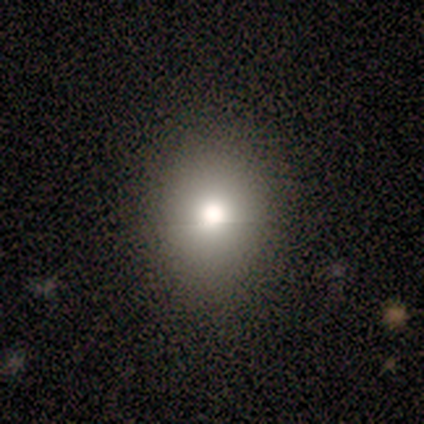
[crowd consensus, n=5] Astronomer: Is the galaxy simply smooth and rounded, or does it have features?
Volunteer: smooth — 100%.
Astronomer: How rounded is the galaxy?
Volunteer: round — 60% (runner-up: in between, 40%).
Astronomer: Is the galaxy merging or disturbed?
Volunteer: none — 80%.